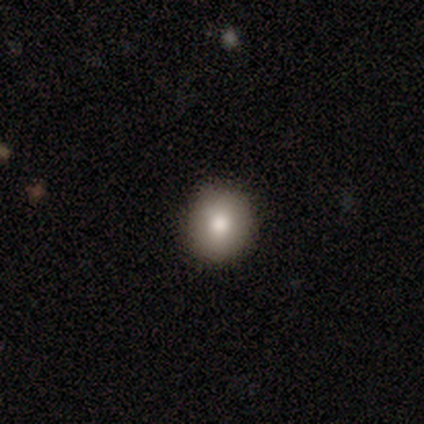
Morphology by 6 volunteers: smooth-or-featured: smooth: 50% (tied) | featured or disk: 50% (tied) | star or artifact: 0%
  how-rounded: round: 100% | in between: 0% | cigar-shaped: 0%
  merging: none: 100% | minor disturbance: 0% | major disturbance: 0% | merger: 0%